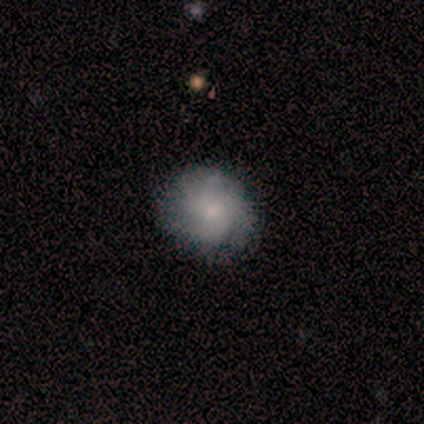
This appears to be a featured or disk galaxy (50%) with no bar (100%), more than 4 (100%) loose (100%) spiral arms (50%, tied with no) and a moderate central bulge (50%, tied with small). Merging: none (100%).